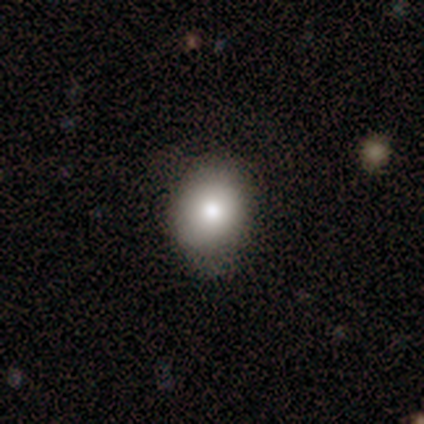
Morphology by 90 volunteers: Smooth or featured: smooth — 86% (featured or disk — 9%)
How rounded: in between — 52% (round — 48%)
Merging: none — 66% (minor disturbance — 26%)